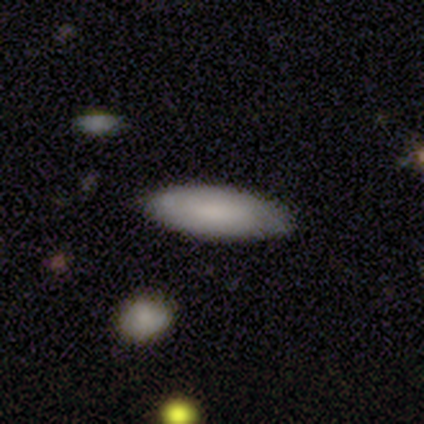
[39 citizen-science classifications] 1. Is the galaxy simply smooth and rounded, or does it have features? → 82% smooth, 15% featured or disk, 3% star or artifact.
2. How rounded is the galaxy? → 56% cigar-shaped, 44% in between, 0% round.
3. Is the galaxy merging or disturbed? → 87% none, 11% minor disturbance, 3% major disturbance, 0% merger.